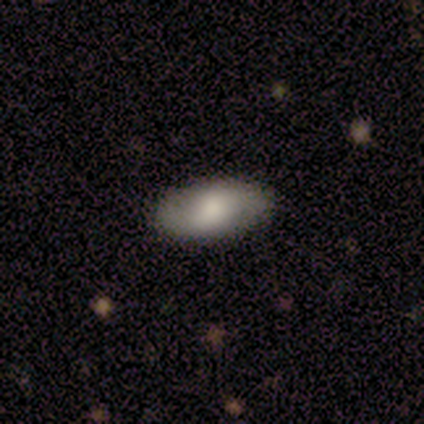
Volunteers were most divided on "smooth or featured": smooth: 56%, featured or disk: 44%, star or artifact: 0%. More confident: how rounded — in between (100%); merging — none (78%).